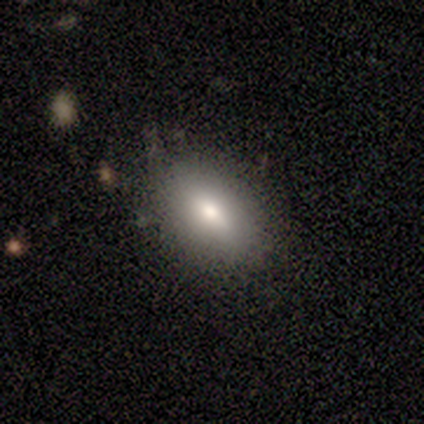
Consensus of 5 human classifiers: Smooth or featured? smooth (80%)
How rounded? in between (75%)
Merging? none (75%)